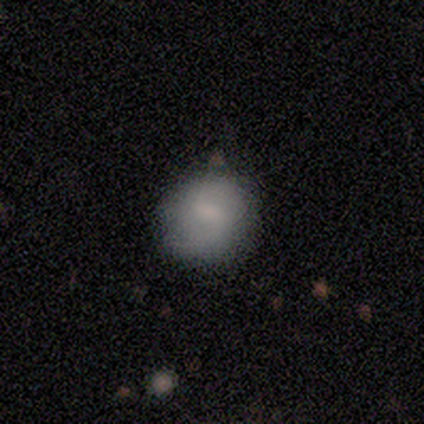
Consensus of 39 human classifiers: smooth-or-featured: smooth: 69% | featured or disk: 28% | star or artifact: 3%
  how-rounded: round: 78% | in between: 22% | cigar-shaped: 0%
  merging: none: 55% | minor disturbance: 18% | merger: 5% | major disturbance: 0%